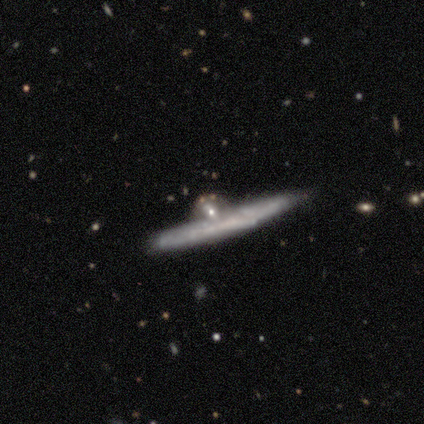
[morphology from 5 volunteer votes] Smooth or featured?
  - featured or disk: 80% *
  - smooth: 20%
  - star or artifact: 0%
Edge-on disk?
  - yes: 100% *
  - no: 0%
Edge-on bulge?
  - rounded: 75% *
  - none: 25%
  - boxy: 0%
Merging?
  - minor disturbance: 60% *
  - none: 40%
  - major disturbance: 0%
  - merger: 0%